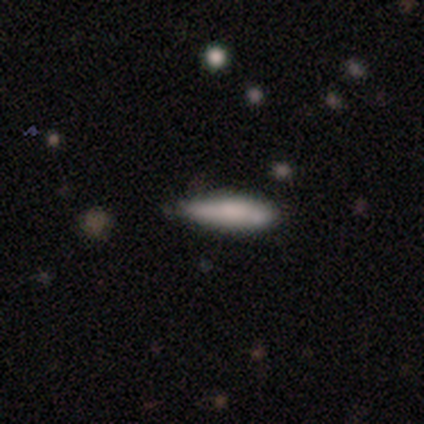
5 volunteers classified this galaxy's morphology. Smooth or featured?
  - smooth: 60% *
  - featured or disk: 20%
  - star or artifact: 20%
How rounded?
  - in between: 67% *
  - cigar-shaped: 33%
  - round: 0%
Merging?
  - none: 50% * (tied)
  - minor disturbance: 50% * (tied)
  - major disturbance: 0%
  - merger: 0%